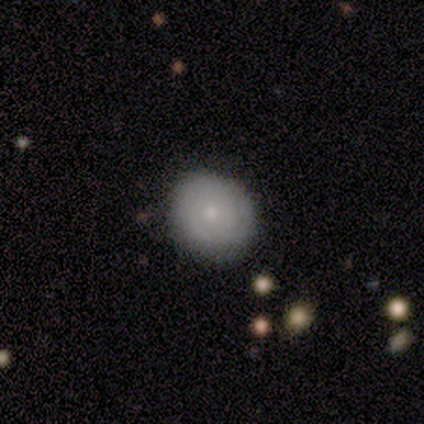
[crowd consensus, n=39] Smooth or featured? 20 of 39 (51%) said featured or disk. Edge-on disk? 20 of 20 (100%) said no. Bar? 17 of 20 (85%) said no. Spiral arms? 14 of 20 (70%) said yes. Spiral winding? 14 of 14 (100%) said tight. Spiral arm count? 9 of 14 (64%) said can't tell. Bulge size? 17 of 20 (85%) said small. Merging? 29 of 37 (78%) said none.